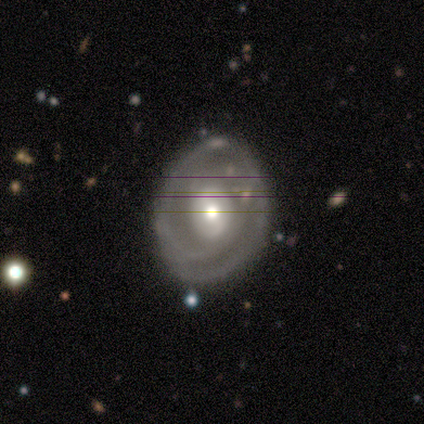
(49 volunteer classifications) This is likely a featured or disk galaxy (71%). It is clearly not viewed edge-on (100%). Bar: likely no (66%). Spiral arm pattern: likely yes (71%). Spiral arm count: possibly can't tell (52%). Spiral winding: possibly tight (56%). Central bulge: possibly moderate (57%). Merging: likely none (71%).